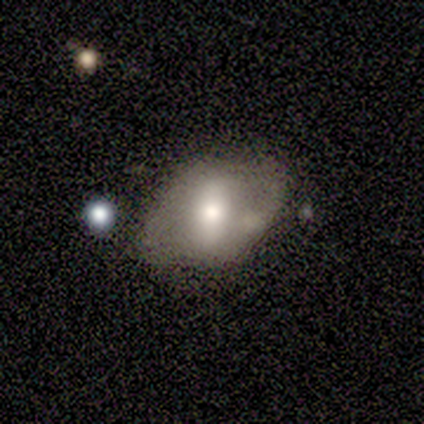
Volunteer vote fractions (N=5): A smooth galaxy with no disk features (60%) that is in between round and cigar-shaped (100%). Merging: none (60%).